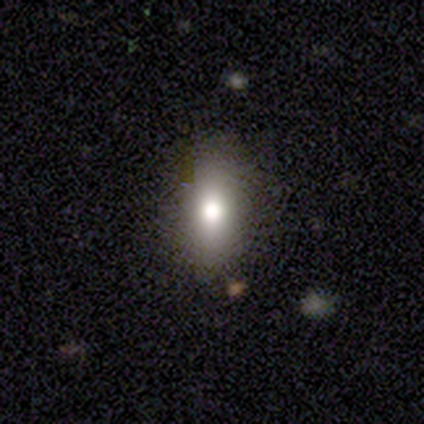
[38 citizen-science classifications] smooth-or-featured: smooth: 66% | featured or disk: 26% | star or artifact: 8%
  how-rounded: in between: 68% | cigar-shaped: 20% | round: 12%
  merging: none: 80% | minor disturbance: 20% | major disturbance: 0% | merger: 0%